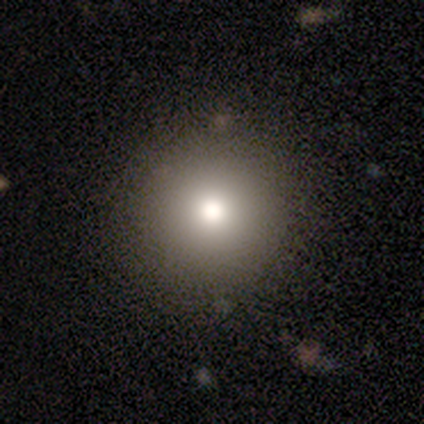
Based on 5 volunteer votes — Smooth or featured? smooth (60%)
How rounded? round (100%)
Merging? none (100%)